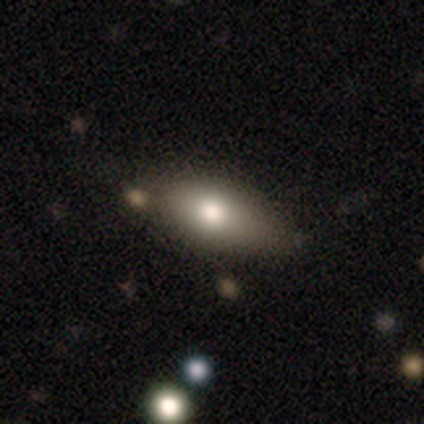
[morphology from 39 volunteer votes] This appears to be a smooth galaxy with no disk features (72%) that is in between round and cigar-shaped (79%). Merging: none (68%).